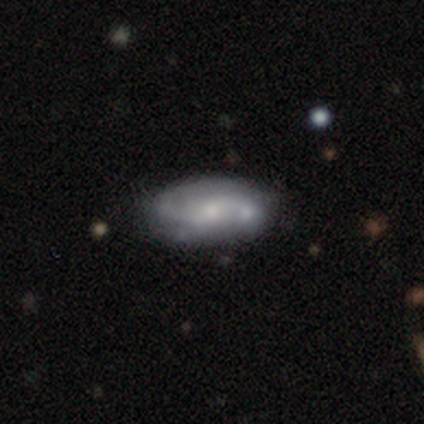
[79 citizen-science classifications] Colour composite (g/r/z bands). It shows a featured or disk galaxy (68%) with no bar (62%), 2 (73%) medium (47%) spiral arms (87%) and a small central bulge (56%). Merging: none (36%).